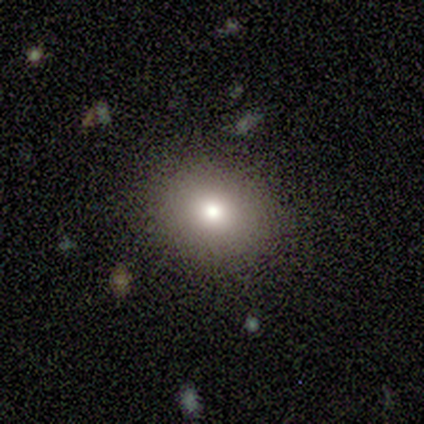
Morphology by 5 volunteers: Smooth or featured: smooth — 100%
How rounded: round — 60% (in between — 40%)
Merging: none — 100%